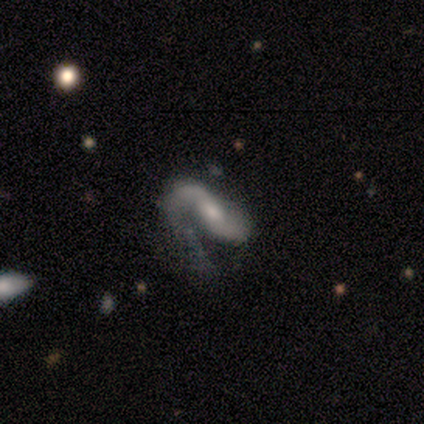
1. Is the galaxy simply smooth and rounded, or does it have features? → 80% featured or disk, 14% smooth, 6% star or artifact.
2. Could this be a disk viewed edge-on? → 95% no, 5% yes.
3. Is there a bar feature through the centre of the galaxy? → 45% weak, 37% no, 18% strong.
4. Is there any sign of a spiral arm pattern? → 95% yes, 5% no.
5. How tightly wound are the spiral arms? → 72% loose, 19% medium, 8% tight.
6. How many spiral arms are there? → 64% 2, 28% 1, 6% can't tell, 3% 3, 0% 4, 0% more than 4.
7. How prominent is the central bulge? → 53% moderate, 37% small, 8% large, 3% none, 0% dominant.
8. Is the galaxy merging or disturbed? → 47% major disturbance, 30% none, 19% minor disturbance, 4% merger.